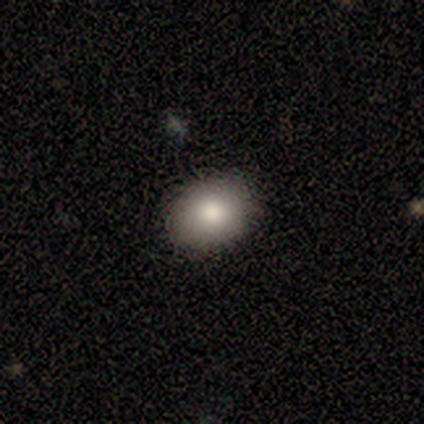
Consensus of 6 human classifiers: Q: Smooth or featured?
A: smooth (100%)
Q: How rounded?
A: round (67%); runner-up: in between (33%)
Q: Merging?
A: none (100%)